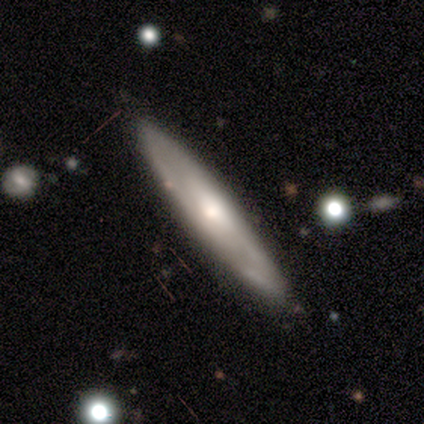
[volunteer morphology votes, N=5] A smooth galaxy with no disk features (60%) that is in between round and cigar-shaped (67%).

Vote fractions:
- Smooth or featured? smooth: 60% / featured or disk: 40% / star or artifact: 0%
- How rounded? in between: 67% / cigar-shaped: 33% / round: 0%
- Merging? none: 80% / minor disturbance: 20% / major disturbance: 0% / merger: 0%